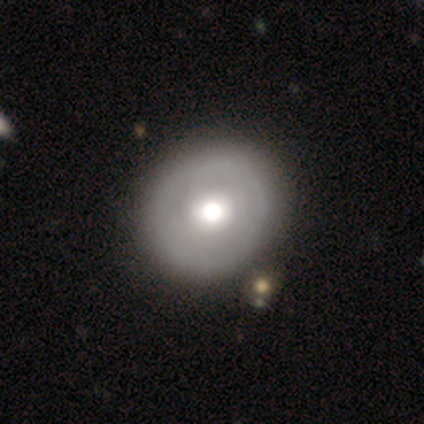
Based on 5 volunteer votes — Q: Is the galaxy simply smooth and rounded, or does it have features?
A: smooth — 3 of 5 (60%).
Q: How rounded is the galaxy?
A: round — 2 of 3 (67%).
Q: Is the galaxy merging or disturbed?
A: none — 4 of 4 (100%).